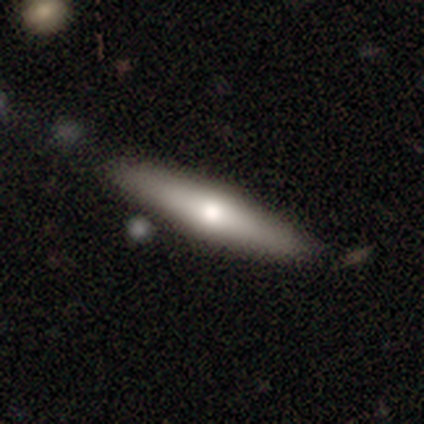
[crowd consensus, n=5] Consensus on every question: smooth or featured — smooth (100%); how rounded — cigar-shaped (100%); merging — none (100%).